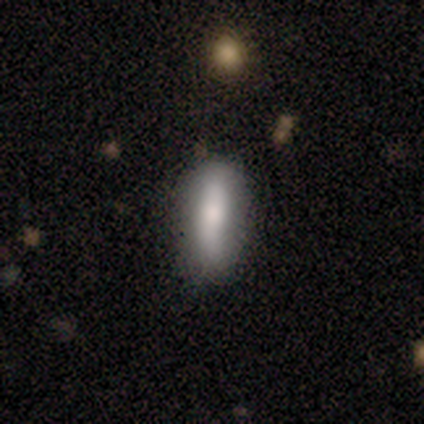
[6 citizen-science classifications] Morphology: type=smooth (83%); roundness=cigar-shaped (60%); merging=none (100%).